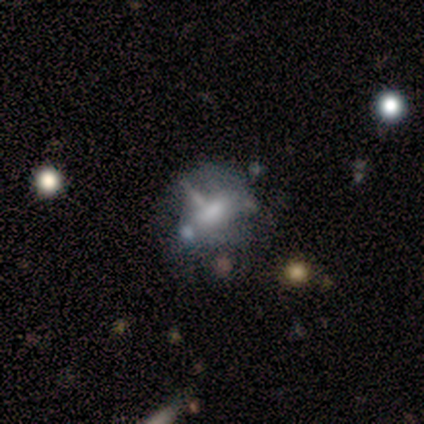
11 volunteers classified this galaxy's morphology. This appears to be a featured or disk galaxy (55%) with a weak bar (50%, tied with no), no spiral arms (100%) and a moderate central bulge (50%). Merging: none (36%).